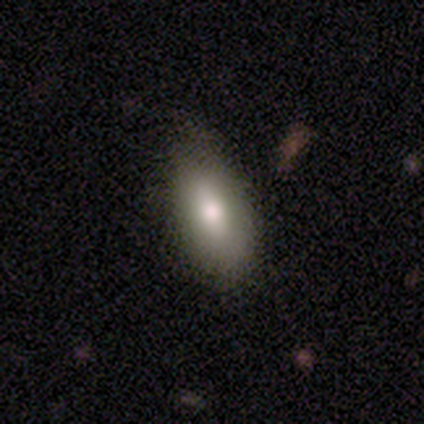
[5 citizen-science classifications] Q: Smooth or featured?
A: smooth (60%); runner-up: featured or disk (40%)
Q: How rounded?
A: in between (67%); runner-up: cigar-shaped (33%)
Q: Merging?
A: none (60%); runner-up: minor disturbance (20%)